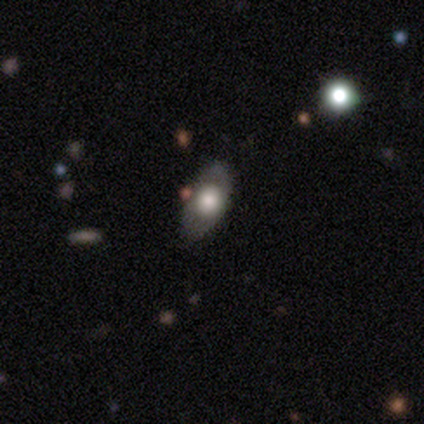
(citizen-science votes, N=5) smooth-or-featured: smooth: 60% | featured or disk: 40% | star or artifact: 0%
  how-rounded: in between: 67% | round: 33% | cigar-shaped: 0%
  merging: none: 100% | minor disturbance: 0% | major disturbance: 0% | merger: 0%